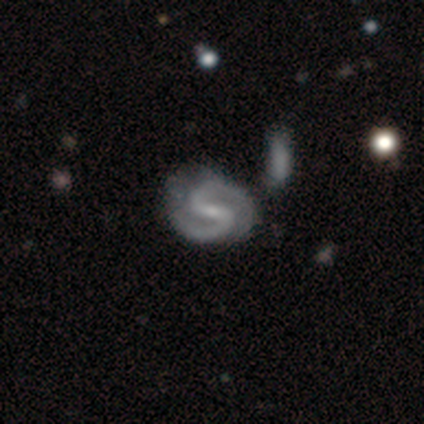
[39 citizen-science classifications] This is clearly a featured or disk galaxy (90%). It is clearly not viewed edge-on (100%). Bar: possibly weak (46%). Spiral arm pattern: clearly yes (100%). Spiral arm count: clearly 2 (94%). Spiral winding: likely medium (69%). Central bulge: clearly small (83%). Merging: likely none (74%).